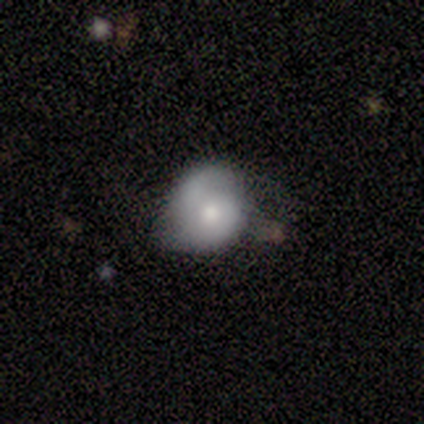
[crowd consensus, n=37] Smooth or featured? 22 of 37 (59%) said smooth. How rounded? 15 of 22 (68%) said round. Merging? 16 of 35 (46%) said minor disturbance.